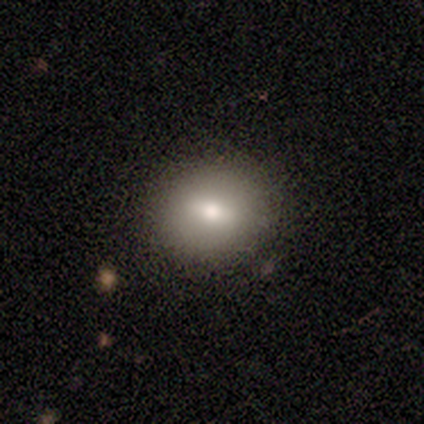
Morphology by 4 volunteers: smooth_or_featured: smooth (p=1.00)
how_rounded: round (p=0.75) [alt: in between p=0.25]
merging: none (p=0.50) [tied with: minor disturbance p=0.50]